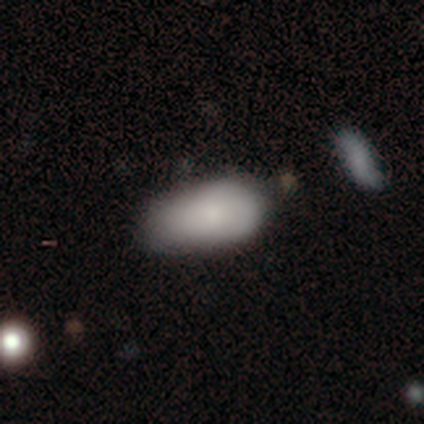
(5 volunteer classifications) Overall: smooth (80%). How rounded: in between (100%). Merging: minor disturbance (100%).